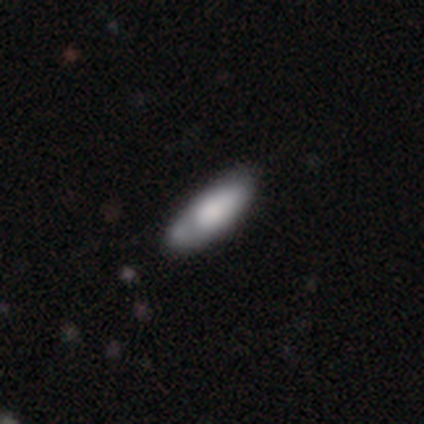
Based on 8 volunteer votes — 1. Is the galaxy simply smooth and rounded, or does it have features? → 75% smooth, 12% featured or disk, 12% star or artifact.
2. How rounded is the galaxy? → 83% in between, 17% cigar-shaped, 0% round.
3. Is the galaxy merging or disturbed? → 43% none (tied), 43% minor disturbance (tied), 14% merger, 0% major disturbance.